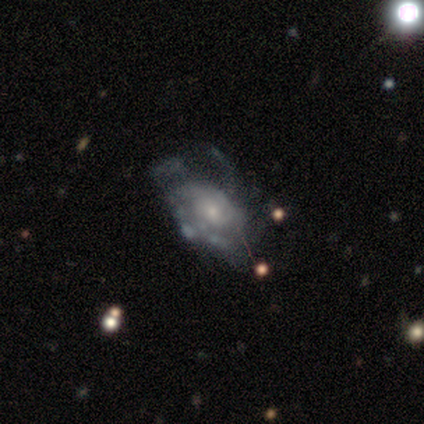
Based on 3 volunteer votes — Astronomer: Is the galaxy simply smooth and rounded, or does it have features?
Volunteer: featured or disk — 67%.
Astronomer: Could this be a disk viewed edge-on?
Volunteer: no — 100%.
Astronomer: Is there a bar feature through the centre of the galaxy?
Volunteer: no — 100%.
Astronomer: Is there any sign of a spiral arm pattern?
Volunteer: yes — 100%.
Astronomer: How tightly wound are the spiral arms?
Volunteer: tight — 100%.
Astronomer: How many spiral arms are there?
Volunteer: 1 — 50%, tied with 2 at 50%.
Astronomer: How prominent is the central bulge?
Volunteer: small — 100%.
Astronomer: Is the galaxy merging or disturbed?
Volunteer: minor disturbance — 67%.